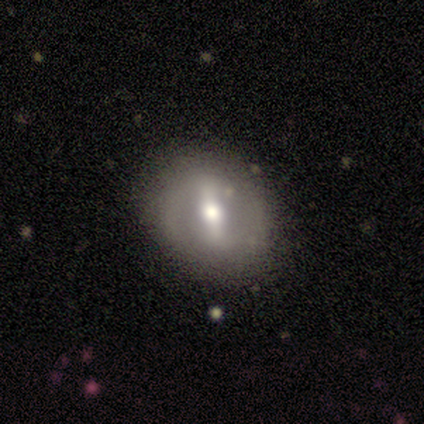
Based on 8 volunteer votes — Smooth or featured: featured or disk — 62% (smooth — 38%)
Edge-on disk: no — 100%
Bar: strong — 60% (weak — 20%)
Spiral arms: no — 80% (yes — 20%)
Bulge size: moderate — 100%
Merging: none — 62% (minor disturbance — 25%)